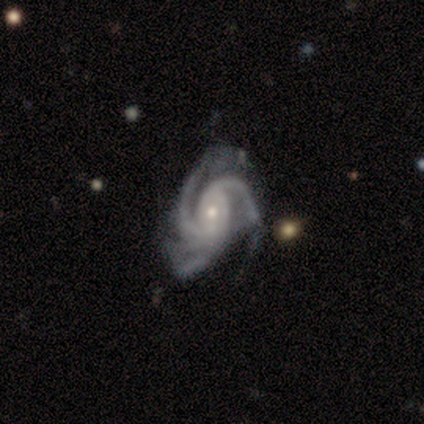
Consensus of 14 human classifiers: Smooth or featured? featured or disk (100%)
Edge-on disk? no (100%)
Bar? no (64%)
Spiral arms? yes (100%)
Spiral winding? tight (57%)
Spiral arm count? 3 (50%)
Bulge size? small (64%)
Merging? none (36%, tied with minor disturbance)